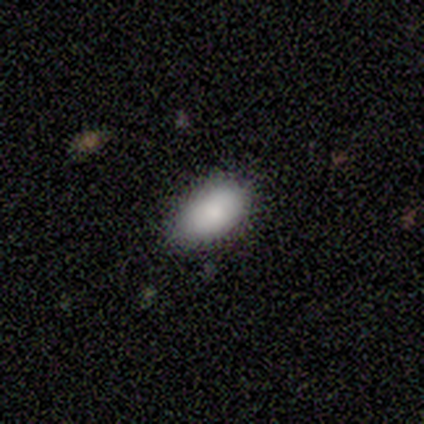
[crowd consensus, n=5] Overall: smooth (80%). How rounded: in between (100%). Merging: none (80%).